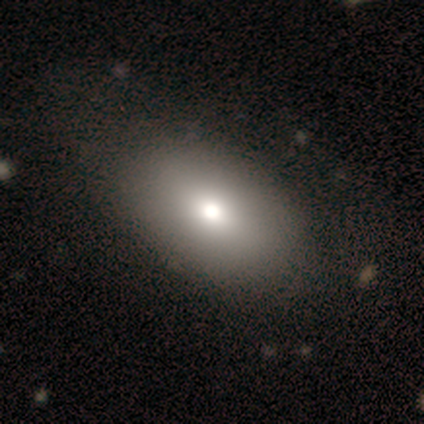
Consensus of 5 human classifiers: This is clearly a smooth galaxy (80%). How rounded: clearly in between (100%). Merging: clearly none (100%).